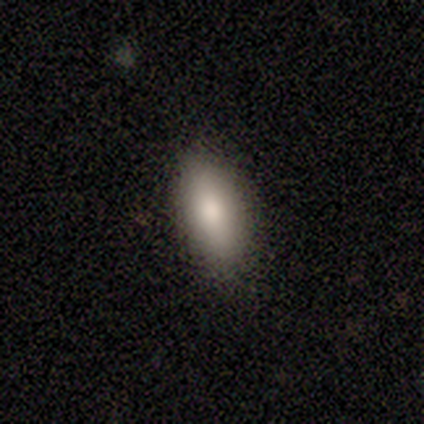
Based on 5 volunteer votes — Smooth or featured?
  - smooth: 100% *
  - featured or disk: 0%
  - star or artifact: 0%
How rounded?
  - in between: 80% *
  - cigar-shaped: 20%
  - round: 0%
Merging?
  - none: 100% *
  - minor disturbance: 0%
  - major disturbance: 0%
  - merger: 0%